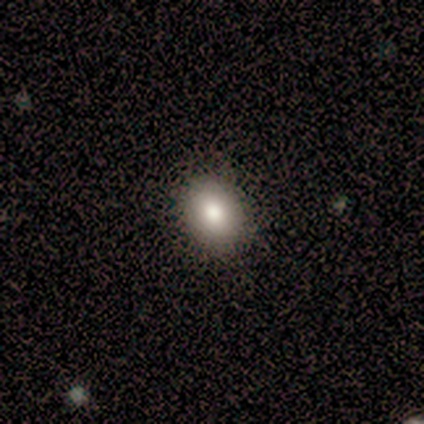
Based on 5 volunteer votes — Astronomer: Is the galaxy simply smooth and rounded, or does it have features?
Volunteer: smooth — 80%.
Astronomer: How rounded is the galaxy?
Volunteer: round — 50%, tied with in between at 50%.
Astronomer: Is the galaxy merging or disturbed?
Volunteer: none — 100%.